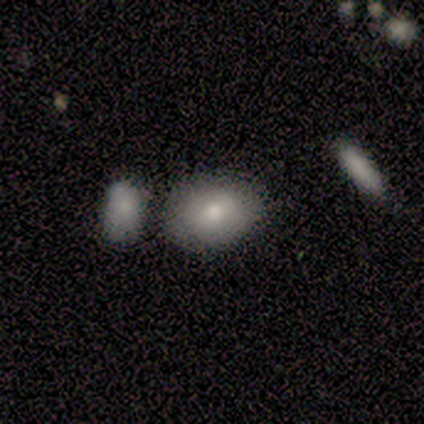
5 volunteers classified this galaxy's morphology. Smooth or featured? 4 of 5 (80%) said smooth. How rounded? 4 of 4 (100%) said in between. Merging? 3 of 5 (60%) said none.